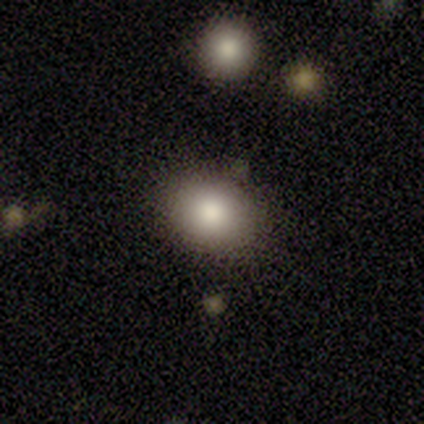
Morphology: type=smooth (80%); roundness=round (50%, tied with in between); merging=none (100%).